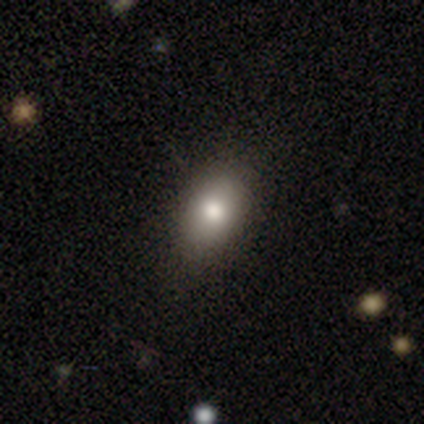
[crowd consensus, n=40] Q: Smooth or featured?
A: smooth (85%); runner-up: featured or disk (12%)
Q: How rounded?
A: in between (91%); runner-up: round (6%)
Q: Merging?
A: none (90%); runner-up: minor disturbance (5%)